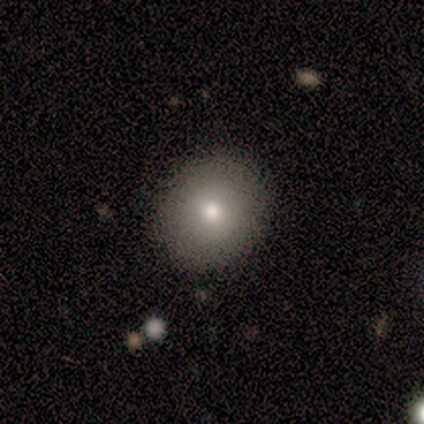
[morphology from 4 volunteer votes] Q: Smooth or featured?
A: smooth (75%); runner-up: star or artifact (25%)
Q: How rounded?
A: round (100%)
Q: Merging?
A: none (100%)